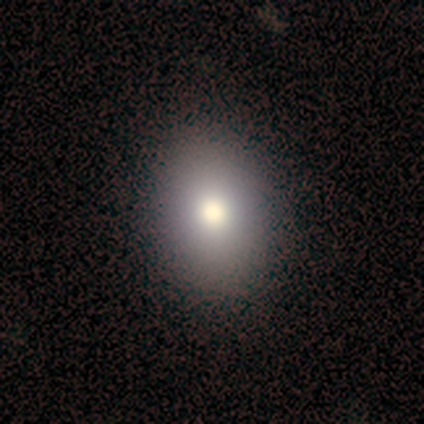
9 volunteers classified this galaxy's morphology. A smooth galaxy with no disk features (67%) that is in between round and cigar-shaped (100%). Merging: none (78%).